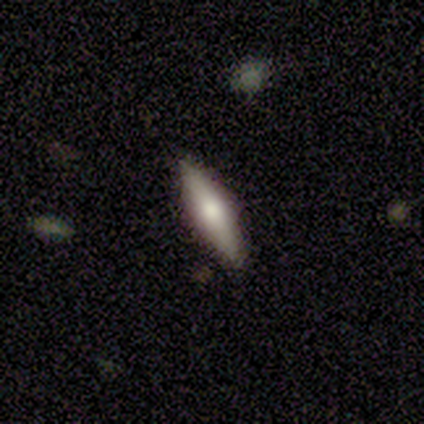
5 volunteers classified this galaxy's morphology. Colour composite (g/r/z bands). It shows a smooth galaxy with no disk features (60%) that is in between round and cigar-shaped (67%). Merging: none (100%).